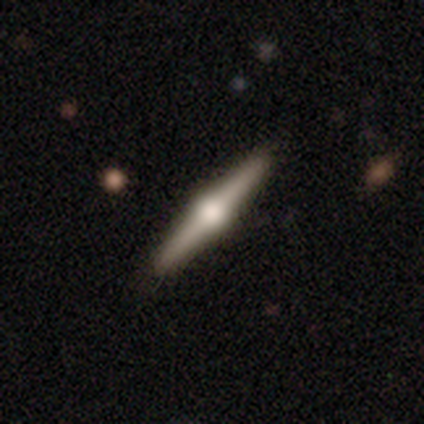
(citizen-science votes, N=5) Overall: featured or disk (100%). Edge-on disk: yes (100%). Edge-on bulge: rounded (100%). Merging: none (80%).